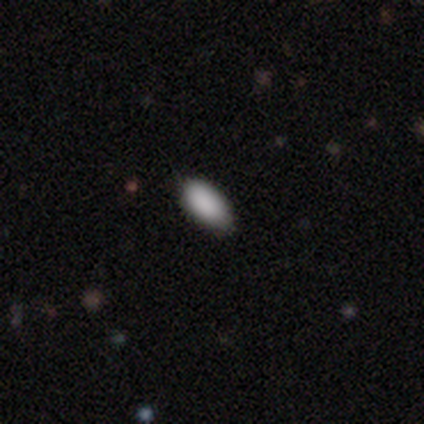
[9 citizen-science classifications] smooth 67%, star or artifact 33%, featured or disk 0%. Down the decision tree: how rounded — in between (100%); merging — none (67%).